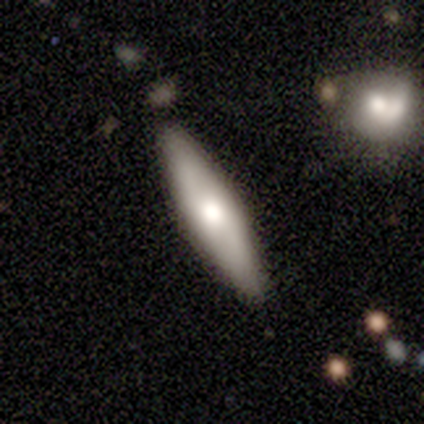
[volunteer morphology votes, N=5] This appears to be a featured or disk galaxy (100%) viewed edge-on (100%) with a rounded central bulge (100%). Merging: none (60%).